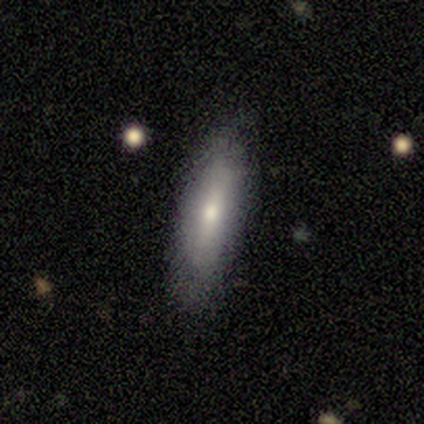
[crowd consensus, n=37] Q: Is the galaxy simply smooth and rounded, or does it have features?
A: smooth — 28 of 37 (76%).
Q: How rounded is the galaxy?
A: cigar-shaped — 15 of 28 (54%).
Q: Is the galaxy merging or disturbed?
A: none — 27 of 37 (73%).